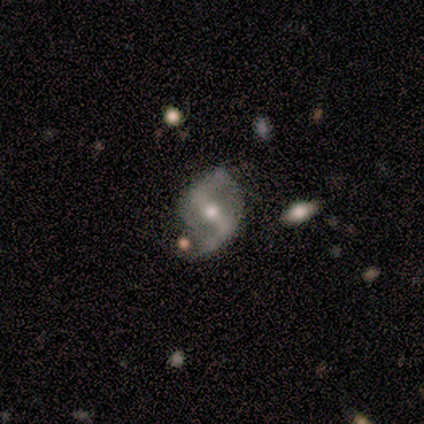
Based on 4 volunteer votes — smooth_or_featured: featured or disk (p=1.00)
disk_edge_on: no (p=1.00)
bar: strong (p=0.75) [alt: weak p=0.25]
has_spiral_arms: yes (p=1.00)
spiral_winding: loose (p=0.75) [alt: medium p=0.25]
spiral_arm_count: 2 (p=1.00)
bulge_size: moderate (p=1.00)
merging: none (p=1.00)